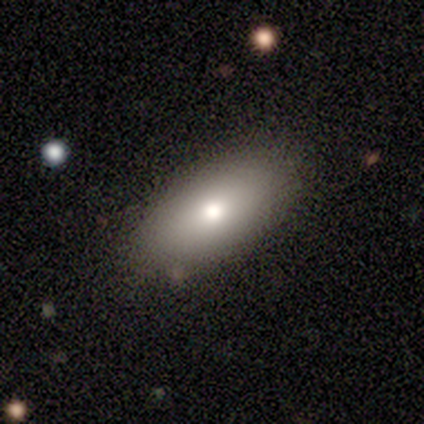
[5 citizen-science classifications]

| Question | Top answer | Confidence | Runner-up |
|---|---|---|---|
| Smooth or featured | smooth | 100% | — |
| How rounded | in between | 80% | round (20%) |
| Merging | none | 100% | — |